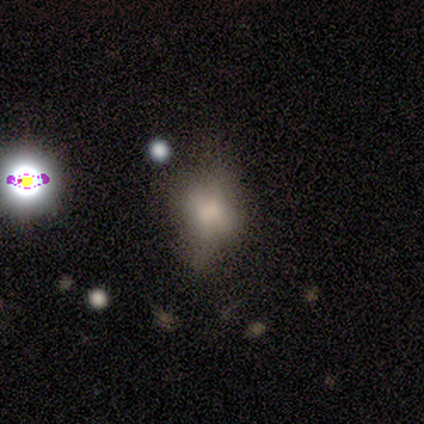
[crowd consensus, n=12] Smooth or featured? smooth (50%)
How rounded? round (50%, tied with in between)
Merging? none (55%)